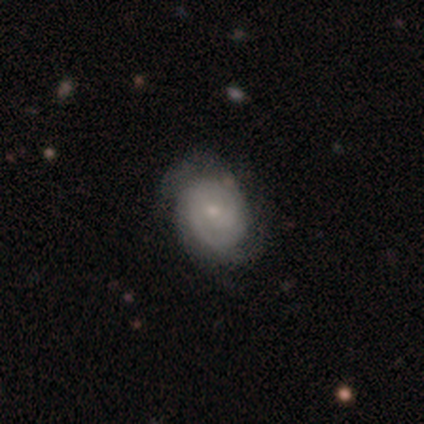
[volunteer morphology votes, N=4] Q: Smooth or featured?
A: smooth (50%); tied with: featured or disk (50%)
Q: How rounded?
A: in between (100%)
Q: Merging?
A: none (75%); runner-up: major disturbance (25%)